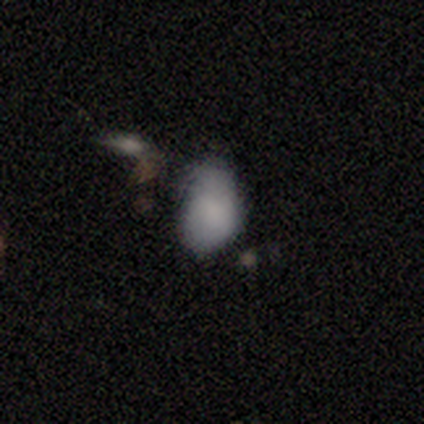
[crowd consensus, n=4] Overall: smooth (100%). How rounded: in between (75%). Merging: none (50%, tied with major disturbance).